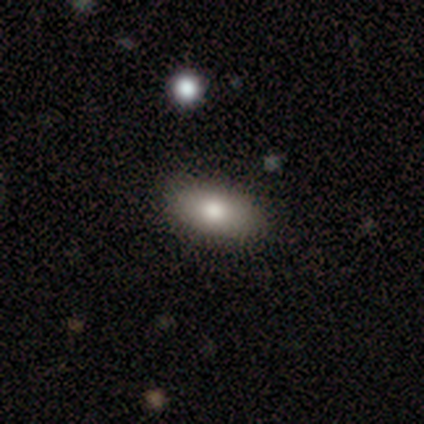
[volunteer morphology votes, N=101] Overall: smooth (82%). How rounded: in between (92%). Merging: none (93%).